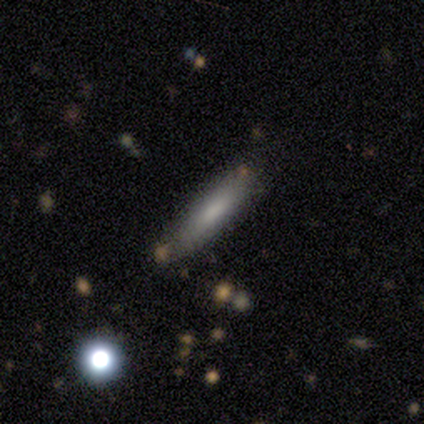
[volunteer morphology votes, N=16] smooth-or-featured: smooth: 69% | featured or disk: 31% | star or artifact: 0%
  how-rounded: cigar-shaped: 73% | in between: 27% | round: 0%
  merging: none: 75% | minor disturbance: 19% | major disturbance: 6% | merger: 0%